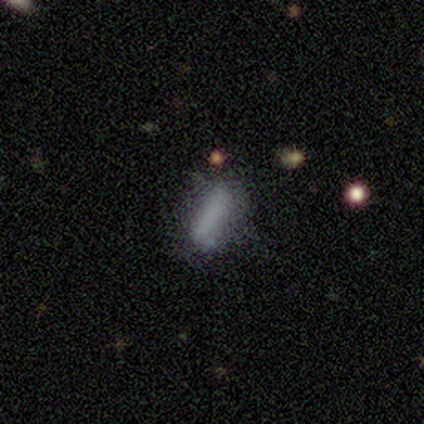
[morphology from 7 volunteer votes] type=smooth (100%); roundness=in between (57%); merging=none (86%).